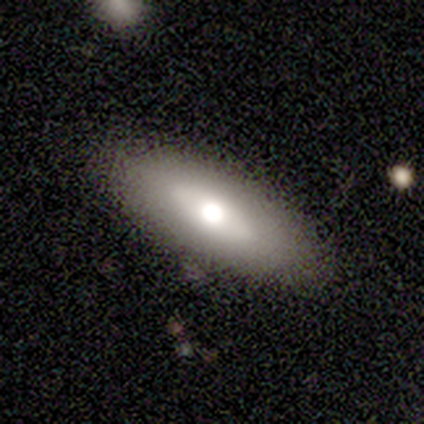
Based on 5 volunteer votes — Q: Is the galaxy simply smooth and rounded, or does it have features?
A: smooth — 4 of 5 (80%).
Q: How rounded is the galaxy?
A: in between — 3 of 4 (75%).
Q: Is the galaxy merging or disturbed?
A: none — 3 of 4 (75%).